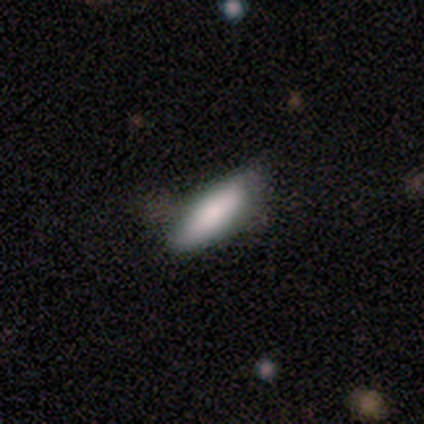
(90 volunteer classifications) Smooth or featured?
  - smooth: 91% *
  - featured or disk: 9%
  - star or artifact: 0%
How rounded?
  - in between: 56% *
  - cigar-shaped: 41%
  - round: 2%
Merging?
  - none: 64% *
  - minor disturbance: 27%
  - major disturbance: 6%
  - merger: 3%